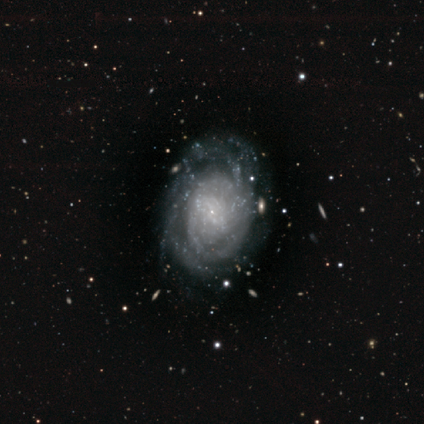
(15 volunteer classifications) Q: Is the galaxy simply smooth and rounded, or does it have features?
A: featured or disk — 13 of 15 (87%).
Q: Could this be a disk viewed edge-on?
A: no — 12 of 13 (92%).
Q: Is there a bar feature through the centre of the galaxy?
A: no — 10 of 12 (83%).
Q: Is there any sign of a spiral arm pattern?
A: yes — 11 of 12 (92%).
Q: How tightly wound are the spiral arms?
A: tight — 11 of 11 (100%).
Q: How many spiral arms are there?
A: can't tell — 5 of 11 (45%).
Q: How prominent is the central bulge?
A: small — 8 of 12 (67%).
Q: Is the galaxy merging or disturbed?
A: none — 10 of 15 (67%).